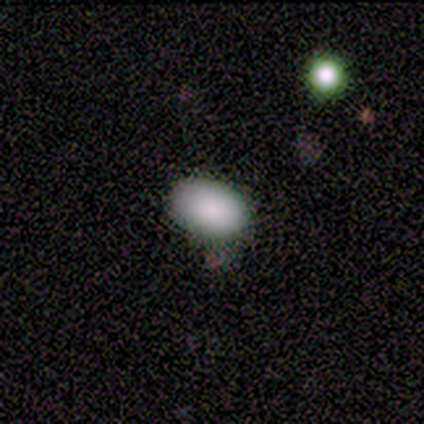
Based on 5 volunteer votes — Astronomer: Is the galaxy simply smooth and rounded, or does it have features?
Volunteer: smooth — 100%.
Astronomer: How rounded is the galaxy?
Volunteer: in between — 100%.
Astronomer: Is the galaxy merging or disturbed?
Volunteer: none — 60% (runner-up: minor disturbance, 40%).